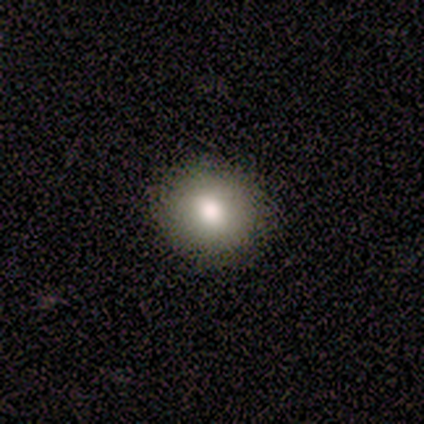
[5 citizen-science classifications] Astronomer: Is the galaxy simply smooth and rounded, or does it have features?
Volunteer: smooth — 80%.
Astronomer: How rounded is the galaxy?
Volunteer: round — 75%.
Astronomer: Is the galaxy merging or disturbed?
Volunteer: none — 75%.